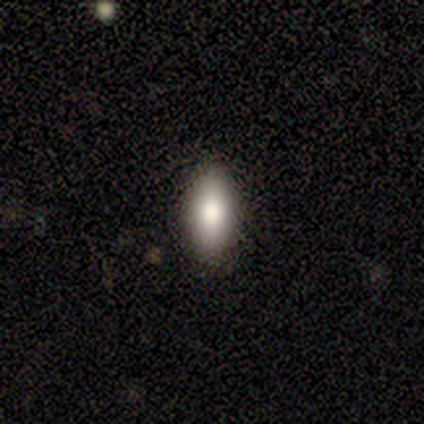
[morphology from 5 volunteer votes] smooth 100%, featured or disk 0%, star or artifact 0%. Down the decision tree: how rounded — in between (60%); merging — none (60%).